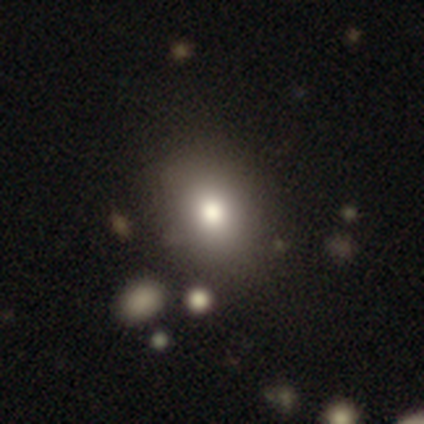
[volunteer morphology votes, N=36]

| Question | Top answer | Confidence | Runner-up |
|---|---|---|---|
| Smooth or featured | smooth | 81% | featured or disk (11%) |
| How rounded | round | 62% | in between (38%) |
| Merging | none | 82% | minor disturbance (9%) |